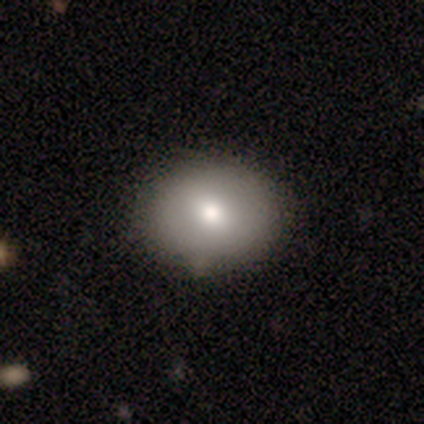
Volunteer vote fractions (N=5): smooth_or_featured: smooth (p=0.80) [alt: featured or disk p=0.20]
how_rounded: round (p=0.50) [tied with: in between p=0.50]
merging: none (p=0.80) [alt: merger p=0.20]